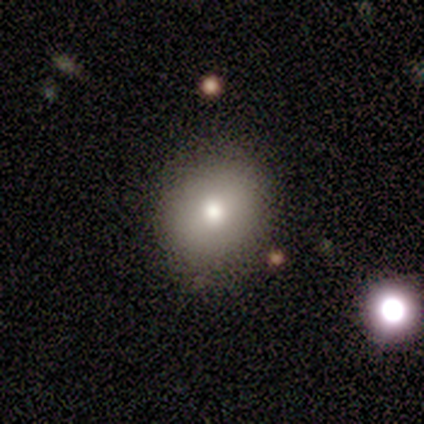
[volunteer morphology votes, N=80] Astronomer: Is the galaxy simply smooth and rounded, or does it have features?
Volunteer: smooth — 92%.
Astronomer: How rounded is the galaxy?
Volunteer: round — 77%.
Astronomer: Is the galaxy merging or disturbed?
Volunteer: none — 43%.